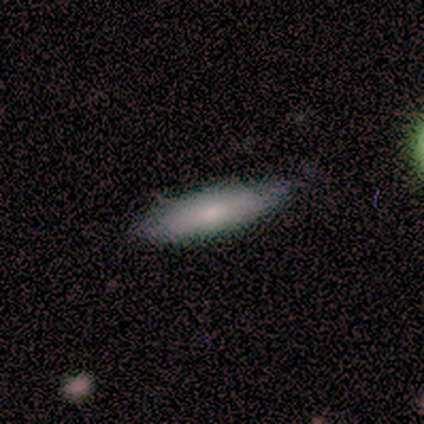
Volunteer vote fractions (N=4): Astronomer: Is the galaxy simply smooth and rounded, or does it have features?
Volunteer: smooth — 75%.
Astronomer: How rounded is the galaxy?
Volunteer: cigar-shaped — 100%.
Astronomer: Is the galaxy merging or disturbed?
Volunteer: none — 75%.